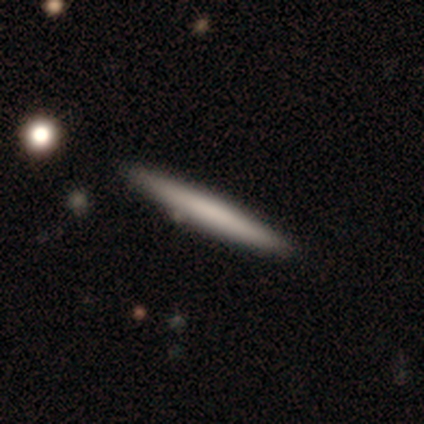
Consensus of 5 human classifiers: smooth-or-featured: featured or disk: 60% | smooth: 20% | star or artifact: 20%
  disk-edge-on: yes: 100% | no: 0%
    edge-on-bulge: none: 100% | boxy: 0% | rounded: 0%
  merging: none: 100% | minor disturbance: 0% | major disturbance: 0% | merger: 0%